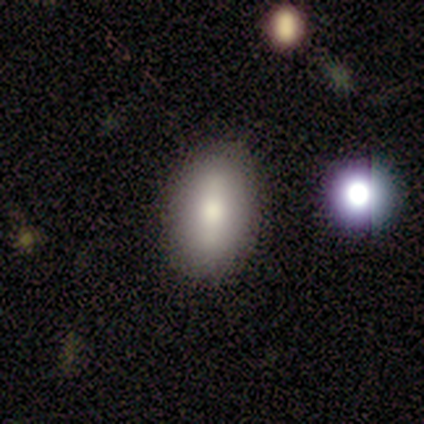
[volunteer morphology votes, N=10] smooth_or_featured: smooth (p=1.00)
how_rounded: in between (p=0.80) [alt: round p=0.20]
merging: none (p=1.00)